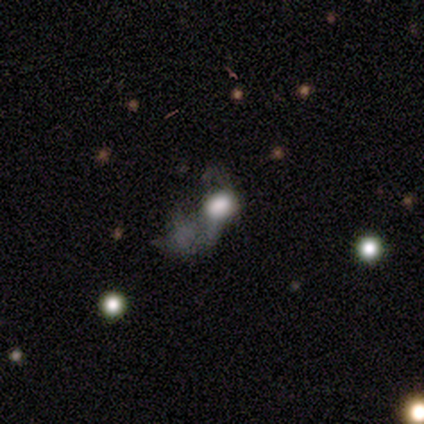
Volunteers were most divided on "smooth or featured" (2-way tie): smooth: 40%, featured or disk: 40%, star or artifact: 20%. More confident: how rounded — in between (100%); merging — major disturbance (75%).